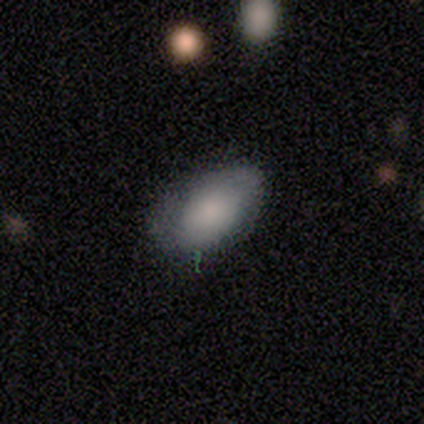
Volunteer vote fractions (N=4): Morphology: type=smooth (50%, tied with star or artifact); roundness=in between (100%); merging=none (100%).